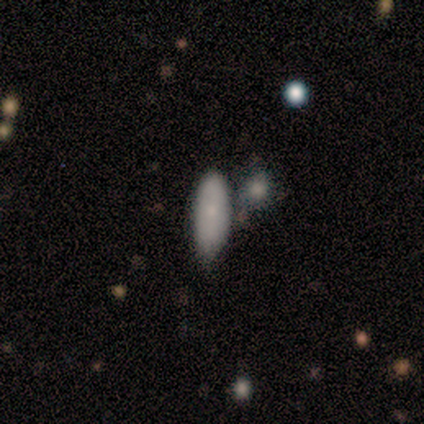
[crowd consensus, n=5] smooth 100%, featured or disk 0%, star or artifact 0%. Down the decision tree: how rounded — in between (80%); merging — minor disturbance (60%).